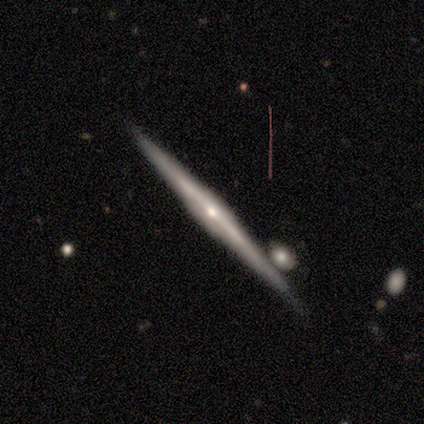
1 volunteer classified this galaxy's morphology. featured or disk 100%, smooth 0%, star or artifact 0%. Down the decision tree: edge-on disk — yes (100%); edge-on bulge — rounded (100%); merging — none (100%).